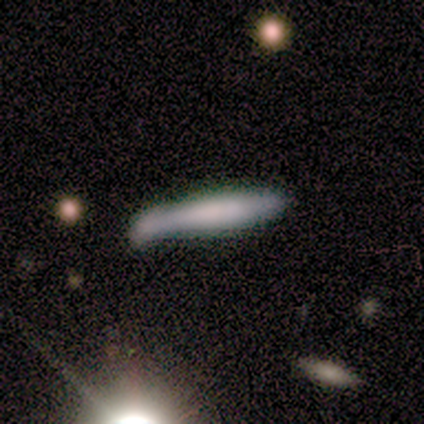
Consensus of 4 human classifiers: A smooth galaxy with no disk features (75%) that is cigar-shaped (100%).

Vote fractions:
- Smooth or featured? smooth: 75% / featured or disk: 25% / star or artifact: 0%
- How rounded? cigar-shaped: 100% / round: 0% / in between: 0%
- Merging? minor disturbance: 50% / none: 25% / merger: 25% / major disturbance: 0%